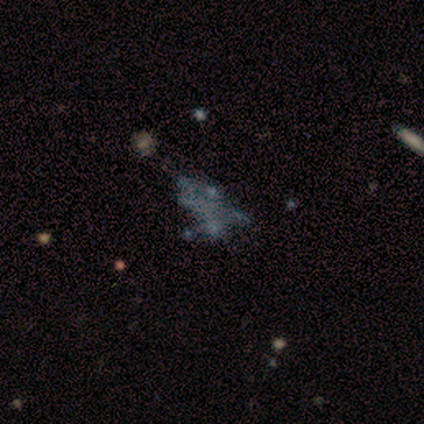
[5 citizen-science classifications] Volunteers were most divided on "merging": merger: 50%, none: 25%, minor disturbance: 25%, major disturbance: 0%. More confident: edge-on disk — no (100%); bar — no (100%); bulge size — none (100%); smooth or featured — featured or disk (80%); spiral arms — no (75%).